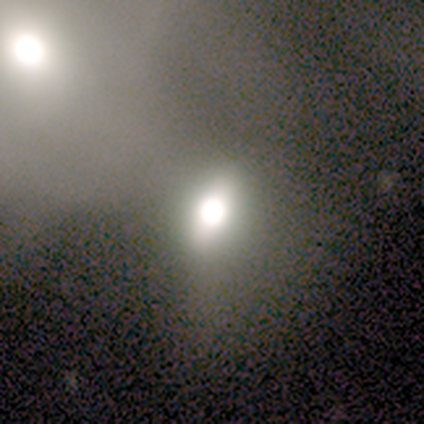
Overall: star or artifact (60%; smooth 40%).